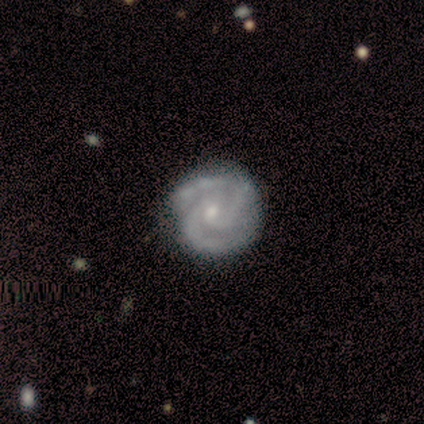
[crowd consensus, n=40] Smooth or featured?
  - featured or disk: 90% *
  - smooth: 5%
  - star or artifact: 5%
Edge-on disk?
  - no: 100% *
  - yes: 0%
Bar?
  - no: 58% *
  - weak: 39%
  - strong: 3%
Spiral arms?
  - yes: 97% *
  - no: 3%
Spiral winding?
  - tight: 63% *
  - medium: 31%
  - loose: 6%
Spiral arm count?
  - 2: 63% *
  - 3: 29%
  - can't tell: 6%
  - 4: 3%
  - 1: 0%
  - more than 4: 0%
Bulge size?
  - moderate: 47% *
  - small: 44%
  - none: 8%
  - dominant: 0%
  - large: 0%
Merging?
  - none: 66% *
  - minor disturbance: 24%
  - major disturbance: 5%
  - merger: 5%